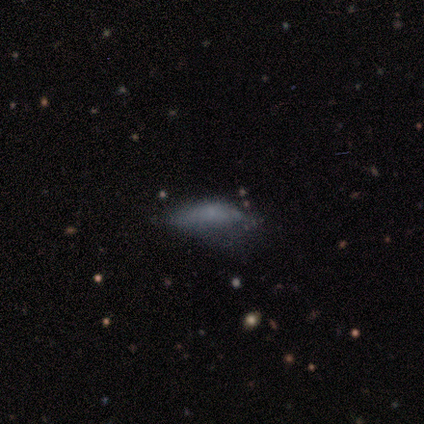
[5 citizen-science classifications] Morphology: type=smooth (60%); roundness=in between (67%); merging=none (40%).